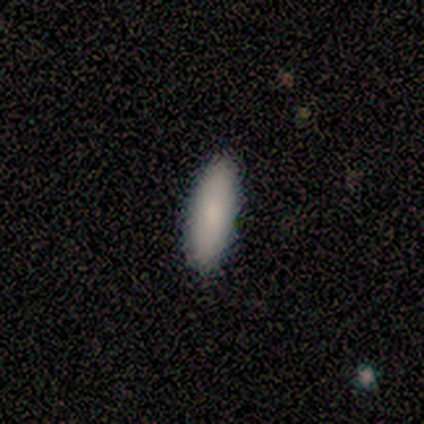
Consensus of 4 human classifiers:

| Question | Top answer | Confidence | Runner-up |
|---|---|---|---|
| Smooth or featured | smooth | 100% | — |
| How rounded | in between | 50% | tied: cigar-shaped (50%) |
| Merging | none | 100% | — |